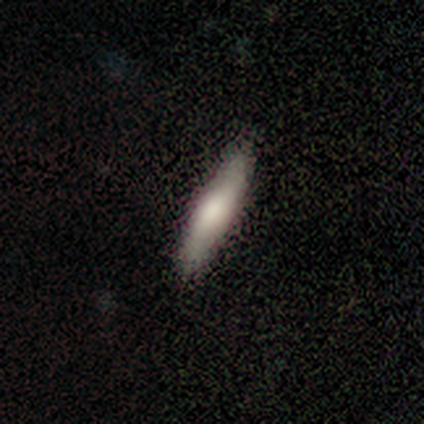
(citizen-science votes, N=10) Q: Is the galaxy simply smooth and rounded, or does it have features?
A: smooth — 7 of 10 (70%).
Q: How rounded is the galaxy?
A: cigar-shaped — 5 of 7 (71%).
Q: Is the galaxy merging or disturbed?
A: none — 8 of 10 (80%).